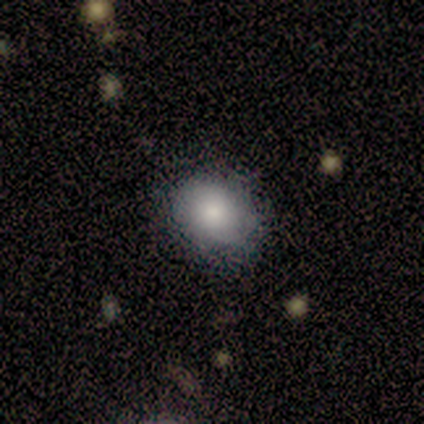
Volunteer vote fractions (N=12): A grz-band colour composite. It shows a smooth galaxy with no disk features (75%) that is in between round and cigar-shaped (56%). Merging: none (55%).